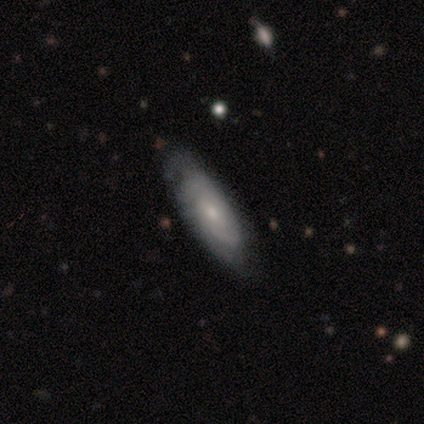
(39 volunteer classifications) This appears to be a featured or disk galaxy (54%) with no bar (69%), tight (64%) spiral arms (88%) and a small central bulge (56%). Merging: none (46%).